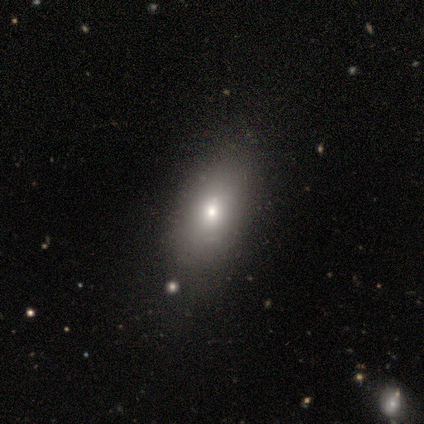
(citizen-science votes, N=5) Smooth or featured? 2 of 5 (40%, tied with featured or disk) said smooth. How rounded? 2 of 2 (100%) said in between. Merging? 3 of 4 (75%) said none.